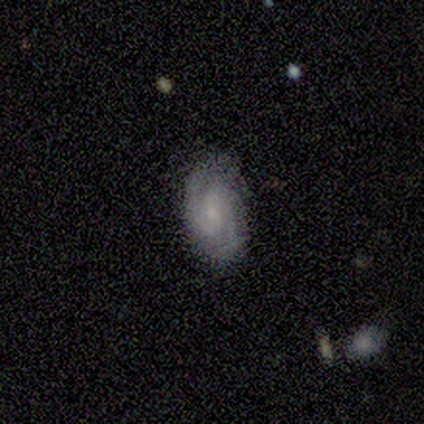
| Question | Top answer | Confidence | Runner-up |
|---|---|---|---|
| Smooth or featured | featured or disk | 80% | smooth (20%) |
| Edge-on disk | no | 100% | — |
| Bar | weak | 75% | no (25%) |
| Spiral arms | yes | 100% | — |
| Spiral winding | tight | 50% | tied: medium (50%) |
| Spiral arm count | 2 | 100% | — |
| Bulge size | moderate | 50% | tied: small (50%) |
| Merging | none | 100% | — |